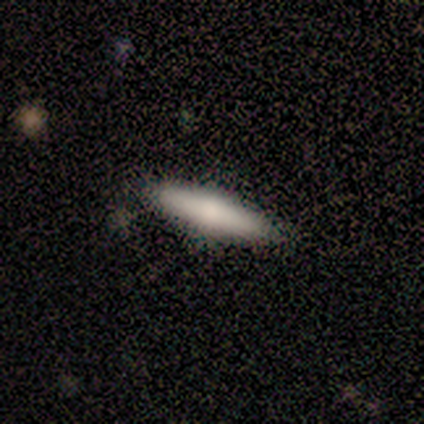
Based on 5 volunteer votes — Morphology: type=featured or disk (80%); edge-on=yes (100%); edge-on bulge=rounded (100%); merging=none (80%).